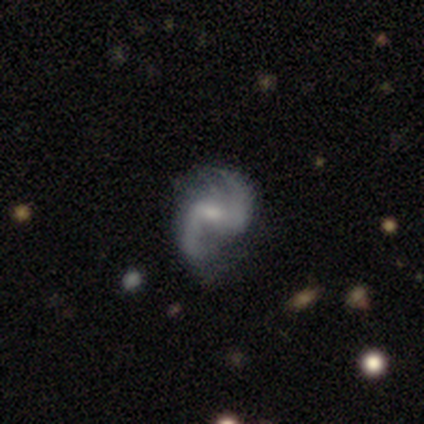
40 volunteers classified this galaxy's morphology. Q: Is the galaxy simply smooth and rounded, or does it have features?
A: featured or disk — 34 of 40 (85%).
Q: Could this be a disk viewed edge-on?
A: no — 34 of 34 (100%).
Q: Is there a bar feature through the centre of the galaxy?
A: weak — 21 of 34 (62%).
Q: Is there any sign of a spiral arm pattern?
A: yes — 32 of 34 (94%).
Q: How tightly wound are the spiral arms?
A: medium — 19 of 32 (59%).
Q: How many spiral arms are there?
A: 2 — 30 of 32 (94%).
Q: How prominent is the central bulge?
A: small — 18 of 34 (53%).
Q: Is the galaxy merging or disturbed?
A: none — 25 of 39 (64%).